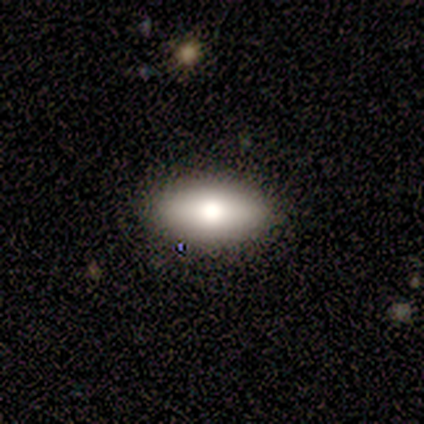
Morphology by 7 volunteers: This appears to be a featured or disk galaxy (57%) viewed edge-on (75%) with a rounded central bulge (100%). Merging: none (100%).